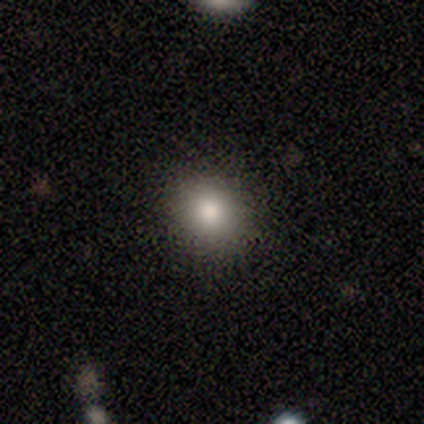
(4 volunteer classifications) smooth_or_featured: smooth (p=1.00)
how_rounded: round (p=0.75) [alt: in between p=0.25]
merging: none (p=1.00)